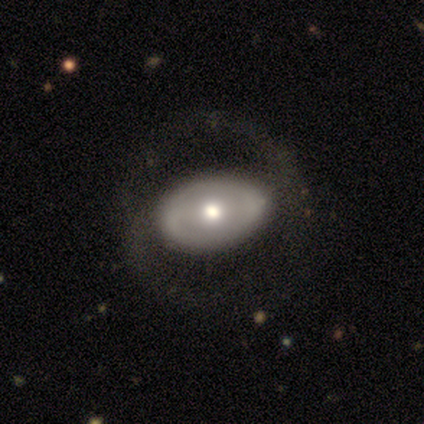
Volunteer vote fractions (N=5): Smooth or featured?
  - featured or disk: 80% *
  - smooth: 20%
  - star or artifact: 0%
Edge-on disk?
  - no: 100% *
  - yes: 0%
Bar?
  - weak: 50% * (tied)
  - no: 50% * (tied)
  - strong: 0%
Spiral arms?
  - no: 75% *
  - yes: 25%
Bulge size?
  - moderate: 75% *
  - small: 25%
  - dominant: 0%
  - large: 0%
  - none: 0%
Merging?
  - none: 100% *
  - minor disturbance: 0%
  - major disturbance: 0%
  - merger: 0%